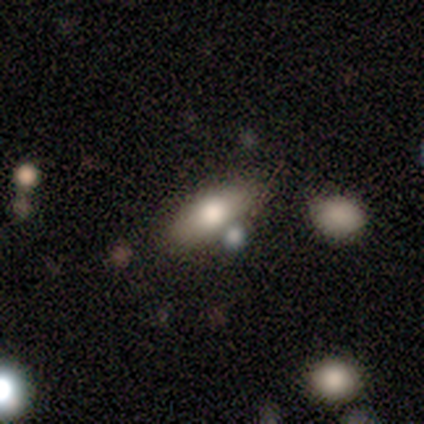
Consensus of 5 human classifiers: Morphology: type=smooth (80%); roundness=in between (100%); merging=none (50%).